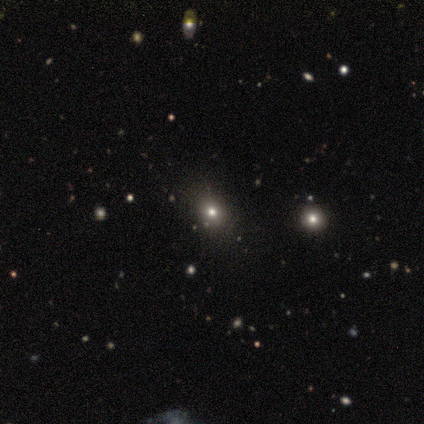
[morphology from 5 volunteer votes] Overall: smooth (80%). How rounded: round (100%). Merging: none (100%).